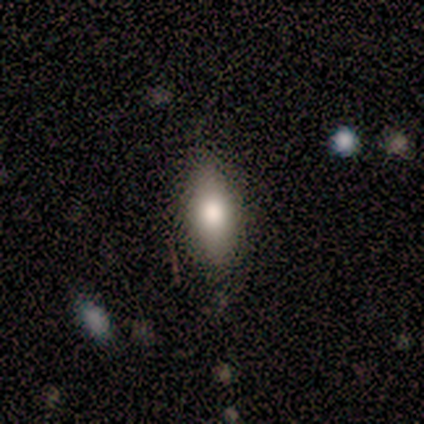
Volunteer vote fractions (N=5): smooth 60%, featured or disk 20%, star or artifact 20%. Down the decision tree: how rounded — cigar-shaped (67%); merging — none (75%).